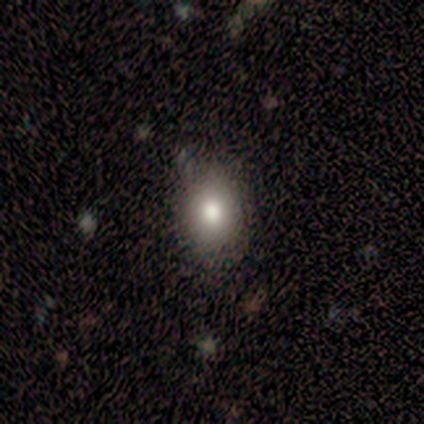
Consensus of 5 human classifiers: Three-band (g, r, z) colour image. It shows a smooth galaxy with no disk features (80%) that is in between round and cigar-shaped (75%). Merging: none (75%).